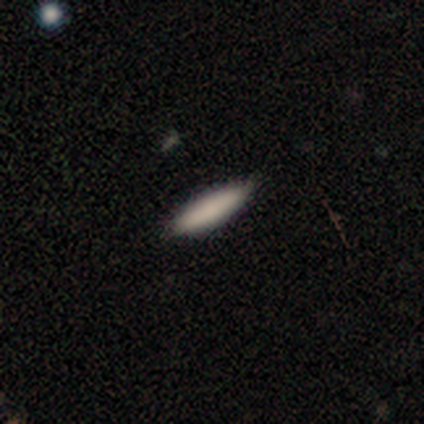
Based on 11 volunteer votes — This appears to be a smooth galaxy with no disk features (100%) that is cigar-shaped (73%). Merging: none (73%).